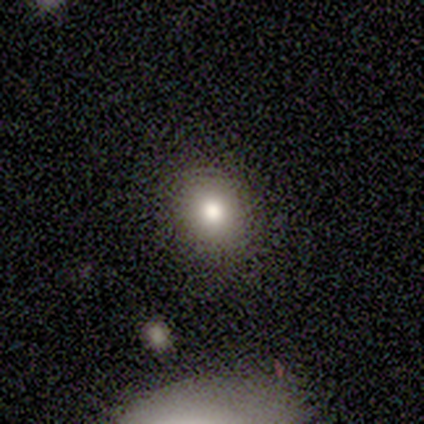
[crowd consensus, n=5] smooth 100%, featured or disk 0%, star or artifact 0%. Down the decision tree: how rounded — round (60%); merging — none (40%, tied with minor disturbance).